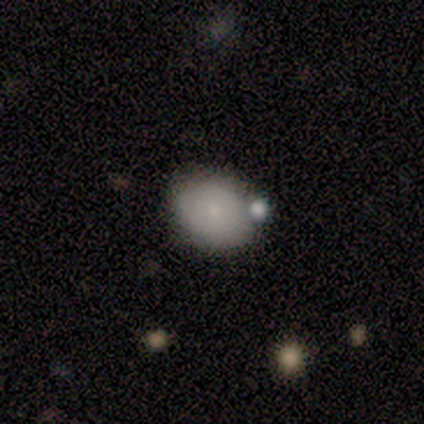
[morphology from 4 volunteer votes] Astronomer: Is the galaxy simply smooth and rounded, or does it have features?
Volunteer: smooth — 75%.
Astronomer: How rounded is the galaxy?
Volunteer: round — 67%.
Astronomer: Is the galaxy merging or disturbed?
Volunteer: none — 67%.